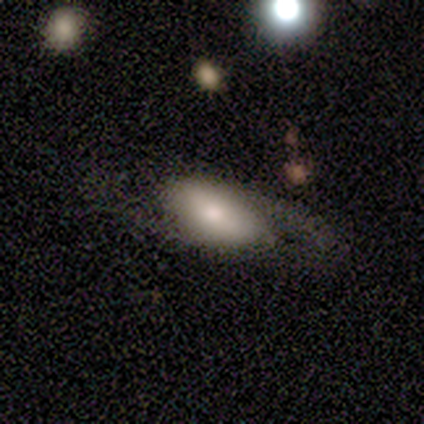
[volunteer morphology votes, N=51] A featured or disk galaxy (51%) with a strong bar (38%), 2 (75%) medium (45%, tied with loose) spiral arms (83%) and a moderate central bulge (50%). Merging: none (51%).